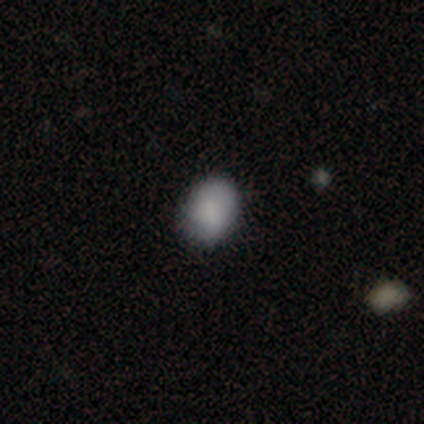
This is clearly a smooth galaxy (100%). How rounded: likely in between (60%). Merging: clearly none (80%).